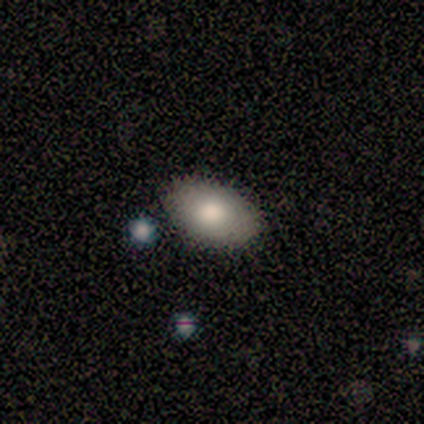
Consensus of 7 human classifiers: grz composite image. It shows a smooth galaxy with no disk features (86%) that is in between round and cigar-shaped (83%). Merging: none (86%).